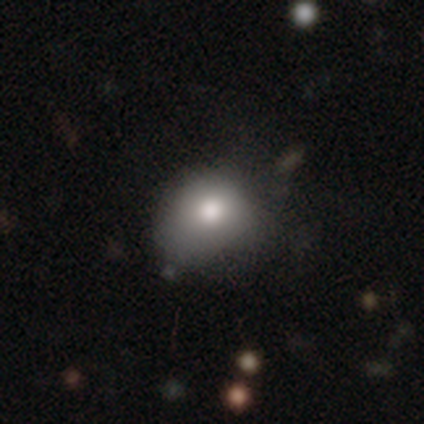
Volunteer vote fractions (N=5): Smooth or featured: smooth — 100%
How rounded: round — 60% (in between — 40%)
Merging: none — 40% (tied with minor disturbance — 40%)